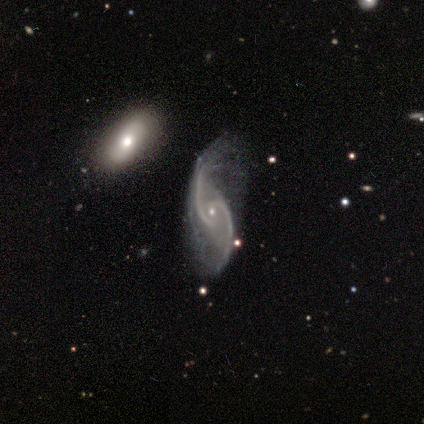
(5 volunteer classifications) smooth-or-featured: featured or disk: 100% | smooth: 0% | star or artifact: 0%
  disk-edge-on: no: 100% | yes: 0%
    bar: weak: 60% | strong: 40% | no: 0%
    has-spiral-arms: yes: 100% | no: 0%
      spiral-winding: medium: 60% | loose: 40% | tight: 0%
      spiral-arm-count: 2: 100% | 1: 0% | 3: 0% | 4: 0% | more than 4: 0% | can't tell: 0%
    bulge-size: small: 100% | dominant: 0% | large: 0% | moderate: 0% | none: 0%
  merging: none: 40% (tied) | minor disturbance: 40% (tied) | major disturbance: 20% | merger: 0%